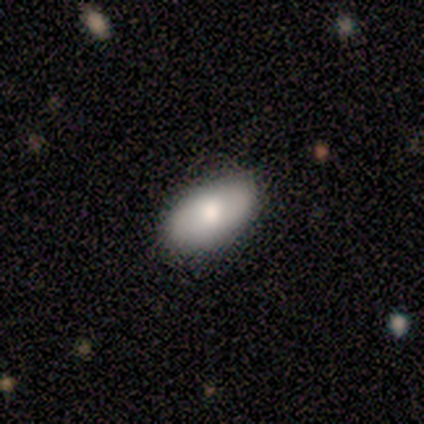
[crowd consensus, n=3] This is clearly a smooth galaxy (100%). How rounded: clearly in between (100%). Merging: likely none (67%).